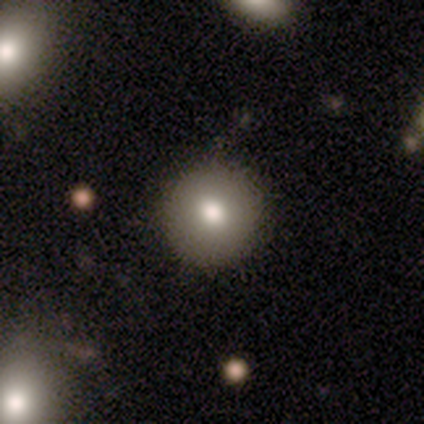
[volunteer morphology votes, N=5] type=smooth (100%); roundness=round (100%); merging=none (80%).